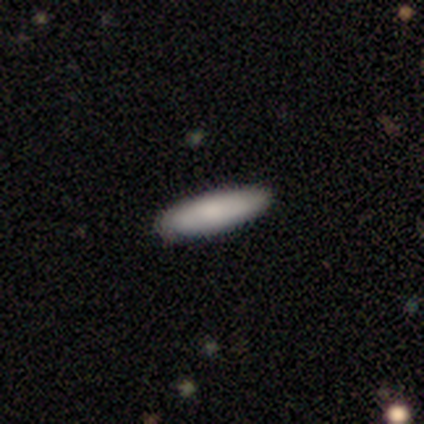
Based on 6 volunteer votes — smooth 67%, featured or disk 33%, star or artifact 0%. Down the decision tree: how rounded — cigar-shaped (75%); merging — none (100%).